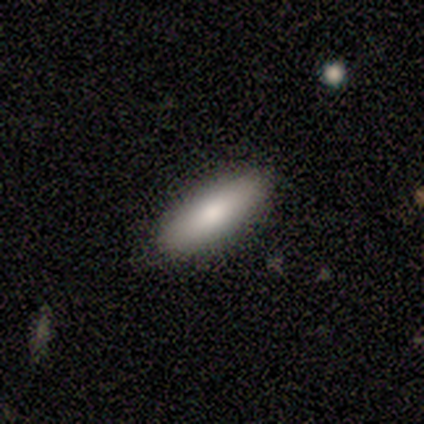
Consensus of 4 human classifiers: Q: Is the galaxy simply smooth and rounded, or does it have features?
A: featured or disk — 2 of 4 (50%).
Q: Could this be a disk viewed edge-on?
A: yes — 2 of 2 (100%).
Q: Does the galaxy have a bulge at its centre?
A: rounded — 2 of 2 (100%).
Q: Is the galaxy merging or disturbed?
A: none — 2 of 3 (67%).